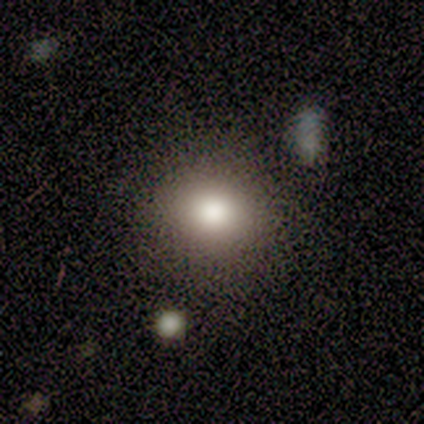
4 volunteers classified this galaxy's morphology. type=smooth (75%); roundness=round (67%); merging=none (100%).